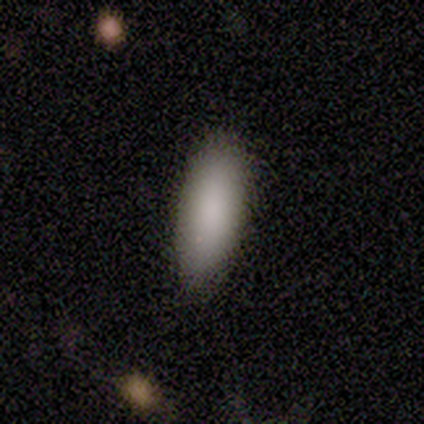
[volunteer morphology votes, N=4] smooth_or_featured: smooth (p=1.00)
how_rounded: in between (p=1.00)
merging: none (p=1.00)